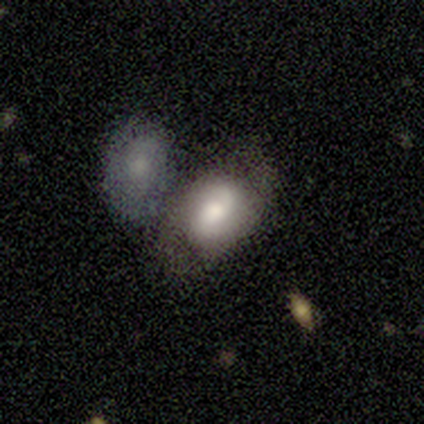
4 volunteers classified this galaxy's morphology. This appears to be a smooth galaxy with no disk features (75%) that is in between round and cigar-shaped (67%). Merging: none (50%).